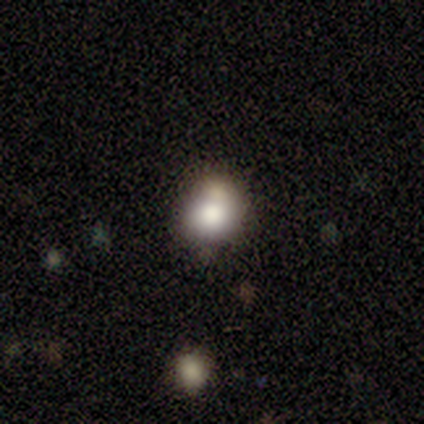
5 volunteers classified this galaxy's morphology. Smooth or featured? smooth (60%)
How rounded? in between (67%)
Merging? minor disturbance (67%)